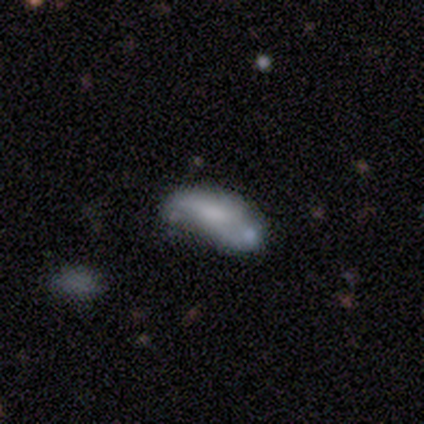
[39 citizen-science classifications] Smooth or featured?
  - smooth: 62% *
  - featured or disk: 33%
  - star or artifact: 5%
How rounded?
  - in between: 88% *
  - cigar-shaped: 12%
  - round: 0%
Merging?
  - minor disturbance: 41% *
  - none: 32%
  - merger: 22%
  - major disturbance: 5%